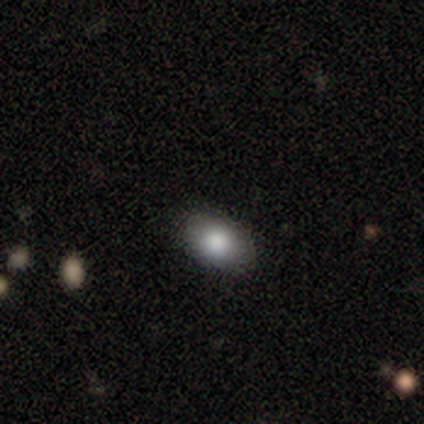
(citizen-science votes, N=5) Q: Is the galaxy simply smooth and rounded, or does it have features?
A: smooth — 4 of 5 (80%).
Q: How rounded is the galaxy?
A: round — 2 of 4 (50%, tied with in between).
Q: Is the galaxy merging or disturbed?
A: none — 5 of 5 (100%).